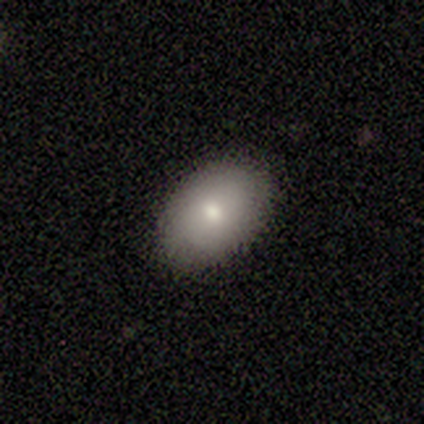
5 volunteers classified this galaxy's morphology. Smooth or featured: smooth — 80% (featured or disk — 20%)
How rounded: in between — 75% (round — 25%)
Merging: none — 100%